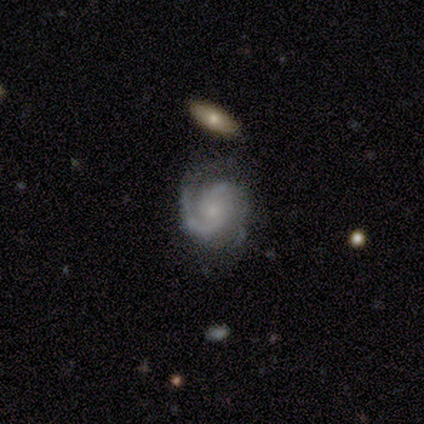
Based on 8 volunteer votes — Smooth or featured: featured or disk — 100%
Edge-on disk: no — 100%
Bar: no — 100%
Spiral arms: yes — 100%
Spiral winding: tight — 50% (tied with medium — 50%)
Spiral arm count: 2 — 75% (1 — 12%)
Bulge size: small — 75% (moderate — 12%)
Merging: none — 75% (minor disturbance — 12%)